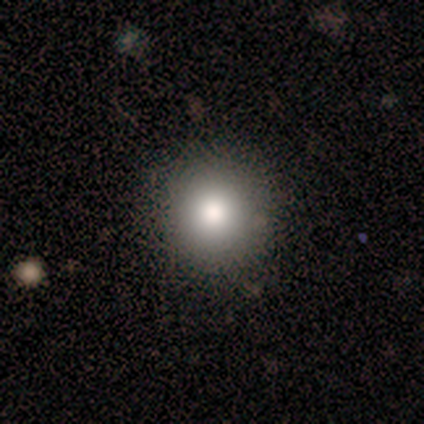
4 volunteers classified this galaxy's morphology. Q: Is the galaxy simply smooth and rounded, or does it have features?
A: smooth — 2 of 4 (50%).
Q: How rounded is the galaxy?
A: round — 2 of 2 (100%).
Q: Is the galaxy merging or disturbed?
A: none — 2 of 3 (67%).